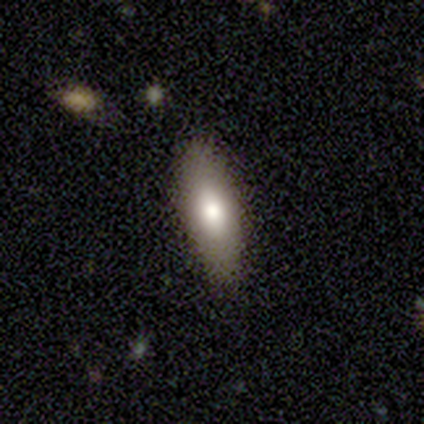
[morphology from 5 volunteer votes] Smooth or featured? smooth (40%, tied with featured or disk)
How rounded? in between (100%)
Merging? none (100%)